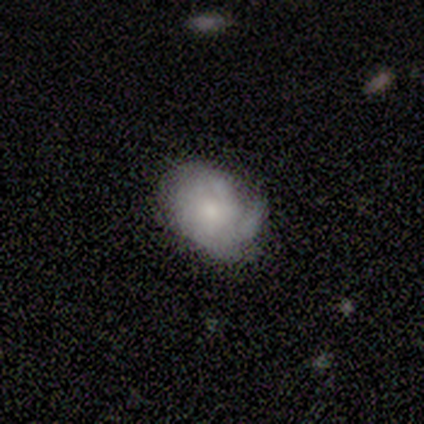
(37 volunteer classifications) Smooth or featured?
  - smooth: 54% *
  - featured or disk: 43%
  - star or artifact: 3%
How rounded?
  - in between: 60% *
  - round: 40%
  - cigar-shaped: 0%
Merging?
  - none: 61% *
  - minor disturbance: 36%
  - major disturbance: 3%
  - merger: 0%